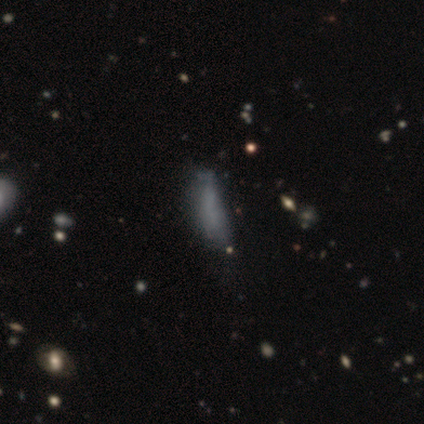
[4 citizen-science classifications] smooth_or_featured: smooth (p=0.75) [alt: star or artifact p=0.25]
how_rounded: in between (p=0.67) [alt: cigar-shaped p=0.33]
merging: minor disturbance (p=0.33) [tied with: major disturbance p=0.33, merger p=0.33]